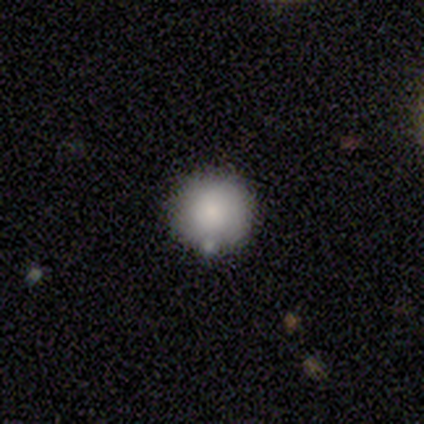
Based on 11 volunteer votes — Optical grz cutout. It shows a smooth galaxy with no disk features (91%) that is round (100%). Merging: none (64%).